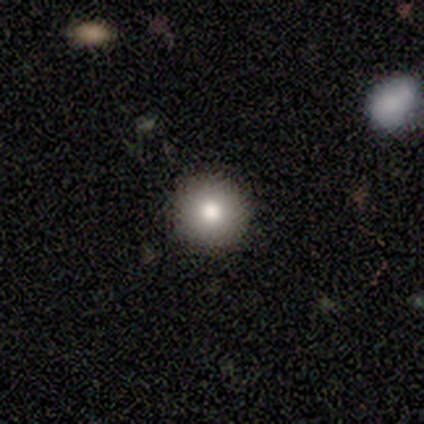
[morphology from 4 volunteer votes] Smooth or featured: smooth — 100%
How rounded: round — 100%
Merging: none — 75% (merger — 25%)